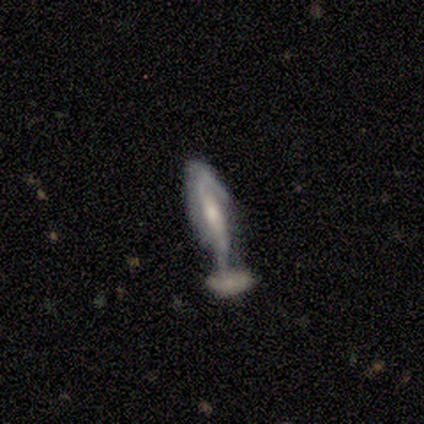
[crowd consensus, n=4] smooth-or-featured: featured or disk: 50% | smooth: 25% | star or artifact: 25%
  disk-edge-on: no: 100% | yes: 0%
    bar: no: 100% | strong: 0% | weak: 0%
    has-spiral-arms: yes: 50% (tied) | no: 50% (tied)
      spiral-winding: loose: 100% | tight: 0% | medium: 0%
      spiral-arm-count: can't tell: 100% | 1: 0% | 2: 0% | 3: 0% | 4: 0% | more than 4: 0%
    bulge-size: small: 50% (tied) | none: 50% (tied) | dominant: 0% | large: 0% | moderate: 0%
  merging: major disturbance: 67% | none: 33% | minor disturbance: 0% | merger: 0%